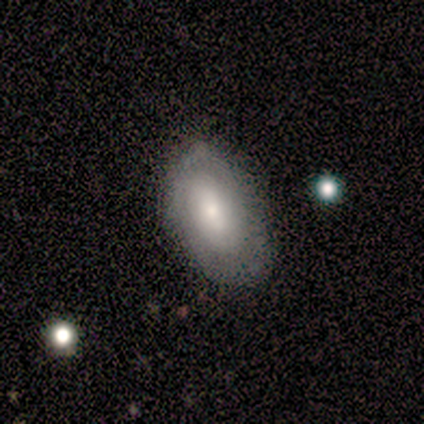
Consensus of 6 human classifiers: Morphology: type=smooth (83%); roundness=in between (80%); merging=none (67%).